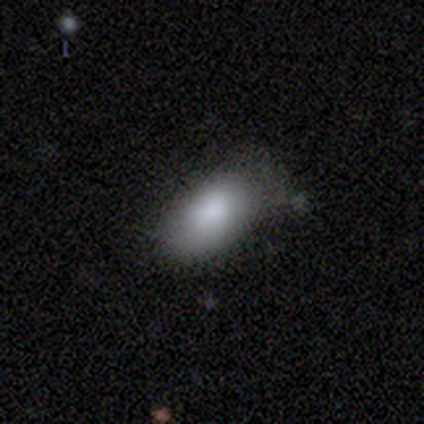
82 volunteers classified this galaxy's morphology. A smooth galaxy with no disk features (85%) that is in between round and cigar-shaped (97%). Merging: minor disturbance (26%).